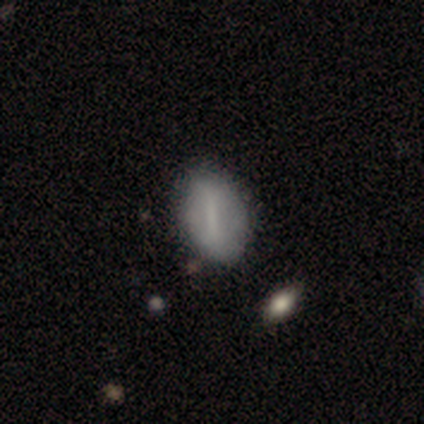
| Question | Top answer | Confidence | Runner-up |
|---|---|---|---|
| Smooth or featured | smooth | 55% | featured or disk (39%) |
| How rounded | in between | 100% | — |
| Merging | none | 83% | minor disturbance (17%) |